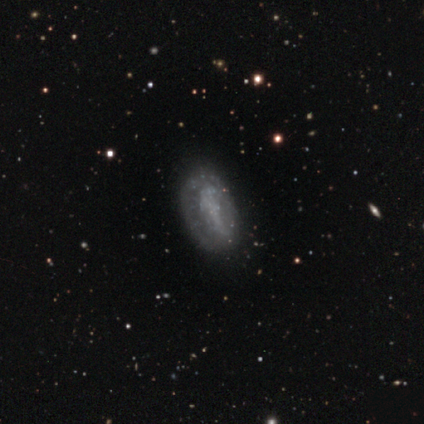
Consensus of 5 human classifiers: A featured or disk galaxy (60%) with no bar (67%), no spiral arms (100%) and no central bulge (100%). Merging: none (80%).